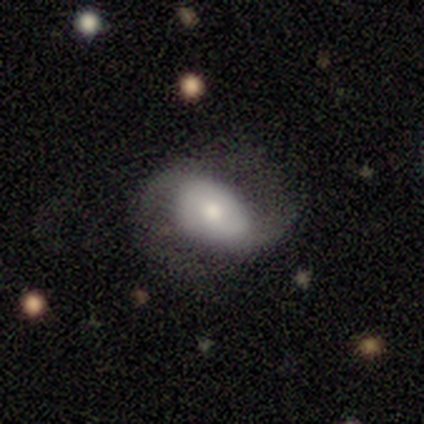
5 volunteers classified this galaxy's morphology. Overall: featured or disk (60%; smooth 40%). Edge-on disk: no (100%). Bar: no (67%; weak 33%). Spiral arms: yes (100%). Spiral arm count: 2 (67%; 1 33%). Spiral winding: medium (67%; loose 33%). Bulge size: large (33%, tied with moderate and small). Merging: none (40%, tied with minor disturbance).